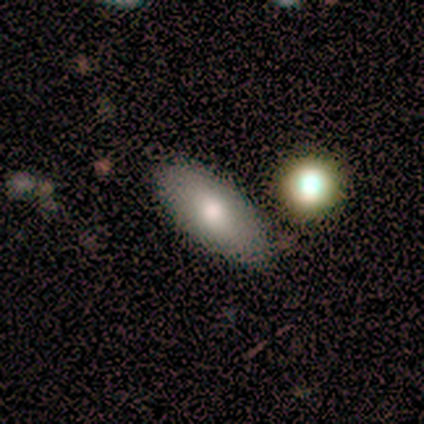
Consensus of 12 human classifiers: Morphology: type=featured or disk (42%); edge-on=no (80%); bar=no (75%); spiral arms=no (100%); bulge=moderate (75%); merging=none (88%).